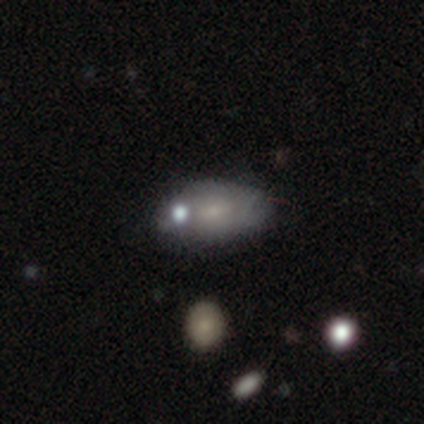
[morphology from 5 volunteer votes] Smooth or featured: featured or disk — 60% (smooth — 40%)
Edge-on disk: no — 100%
Bar: no — 67% (weak — 33%)
Spiral arms: no — 67% (yes — 33%)
Bulge size: moderate — 33% (tied with small — 33%; none — 33%)
Merging: none — 60% (minor disturbance — 40%)